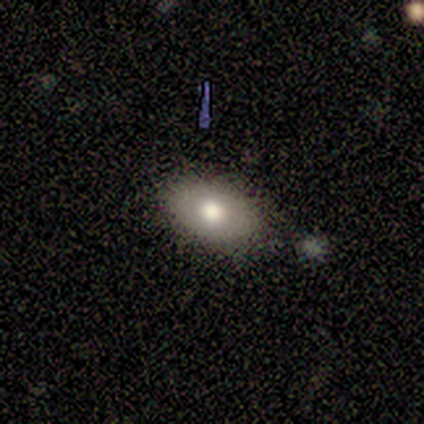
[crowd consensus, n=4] smooth 75%, star or artifact 25%, featured or disk 0%. Down the decision tree: how rounded — in between (67%); merging — none (67%).